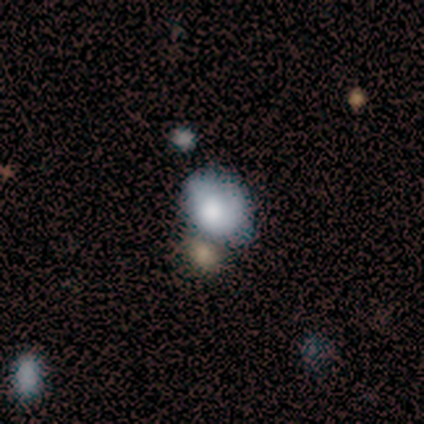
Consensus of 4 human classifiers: Overall: smooth (75%). How rounded: in between (67%; round 33%). Merging: none (75%).